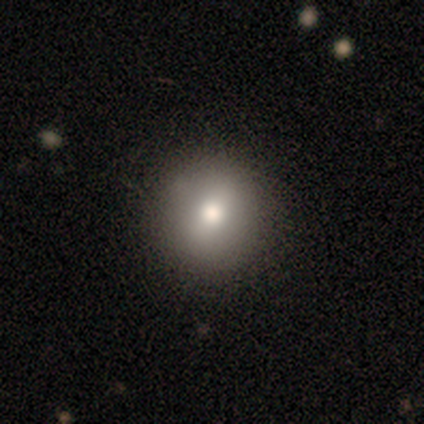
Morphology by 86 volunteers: Smooth or featured?
  - smooth: 79% *
  - featured or disk: 15%
  - star or artifact: 6%
How rounded?
  - round: 99% *
  - in between: 1%
  - cigar-shaped: 0%
Merging?
  - none: 86% *
  - minor disturbance: 10%
  - major disturbance: 2%
  - merger: 1%